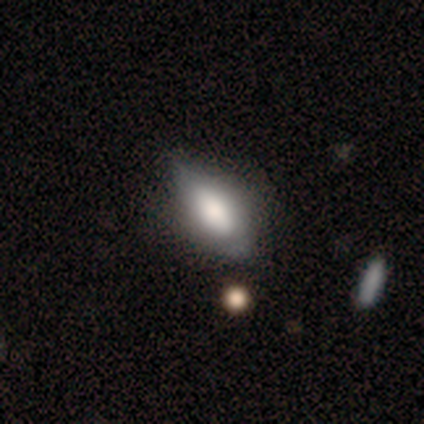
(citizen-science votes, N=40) Smooth or featured? smooth (65%)
How rounded? in between (92%)
Merging? none (42%)